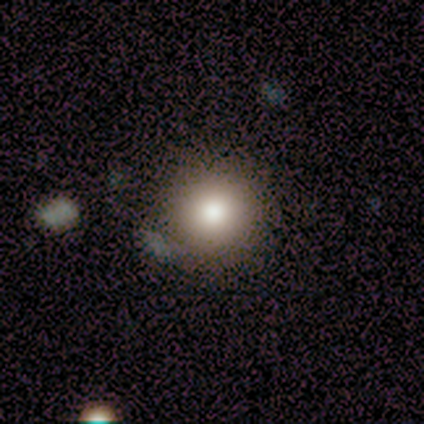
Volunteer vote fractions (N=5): smooth-or-featured: smooth: 100% | featured or disk: 0% | star or artifact: 0%
  how-rounded: round: 100% | in between: 0% | cigar-shaped: 0%
  merging: none: 100% | minor disturbance: 0% | major disturbance: 0% | merger: 0%